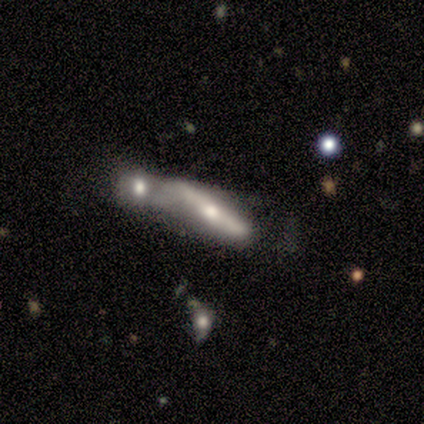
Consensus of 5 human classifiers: A smooth galaxy with no disk features (40%, tied with featured or disk) that is cigar-shaped (100%).

Vote fractions:
- Smooth or featured? smooth: 40% (tied) / featured or disk: 40% (tied) / star or artifact: 20%
- How rounded? cigar-shaped: 100% / round: 0% / in between: 0%
- Merging? merger: 75% / minor disturbance: 25% / none: 0% / major disturbance: 0%